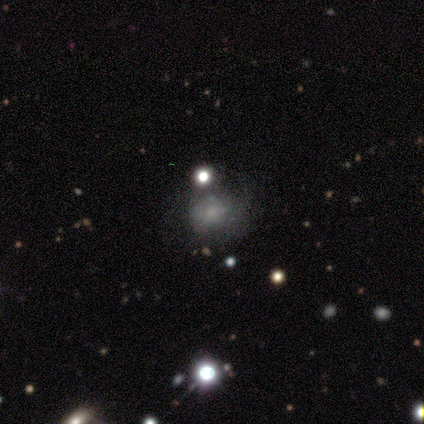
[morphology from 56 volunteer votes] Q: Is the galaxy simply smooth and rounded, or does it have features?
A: smooth — 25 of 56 (45%).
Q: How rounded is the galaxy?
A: round — 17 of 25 (68%).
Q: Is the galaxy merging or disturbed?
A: none — 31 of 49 (63%).